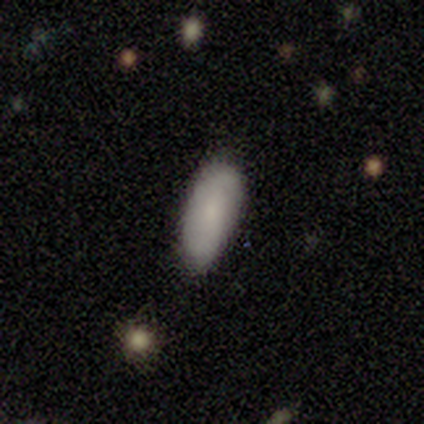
This is likely a featured or disk galaxy (67%). It is clearly not viewed edge-on (100%). Bar: possibly weak (50%, tied with no). Spiral arm pattern: possibly yes (50%, tied with no). Spiral arm count: clearly 2 (100%). Spiral winding: clearly medium (100%). Central bulge: likely small (75%). Merging: likely none (67%).